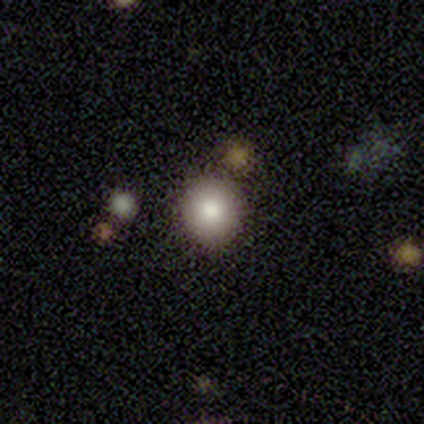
Q: Smooth or featured?
A: smooth (86%); runner-up: star or artifact (14%)
Q: How rounded?
A: round (100%)
Q: Merging?
A: none (100%)